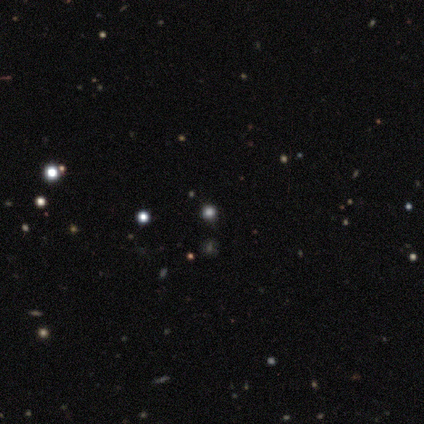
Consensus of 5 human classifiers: smooth_or_featured: smooth (p=0.80) [alt: star or artifact p=0.20]
how_rounded: round (p=1.00)
merging: none (p=1.00)